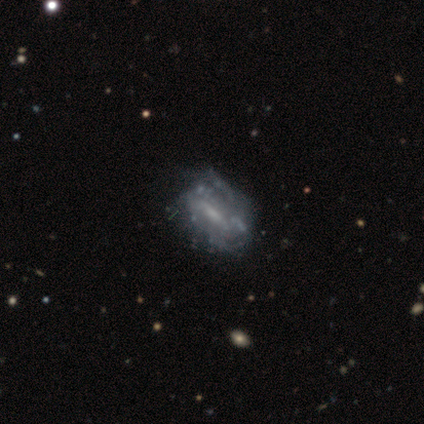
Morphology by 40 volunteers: Q: Smooth or featured?
A: featured or disk (85%); runner-up: smooth (15%)
Q: Edge-on disk?
A: no (97%); runner-up: yes (3%)
Q: Bar?
A: weak (42%); runner-up: strong (33%)
Q: Spiral arms?
A: yes (67%); runner-up: no (33%)
Q: Spiral winding?
A: tight (55%); runner-up: medium (32%)
Q: Spiral arm count?
A: can't tell (68%); runner-up: 2 (27%)
Q: Bulge size?
A: small (39%); runner-up: moderate (33%)
Q: Merging?
A: none (48%); runner-up: minor disturbance (12%)